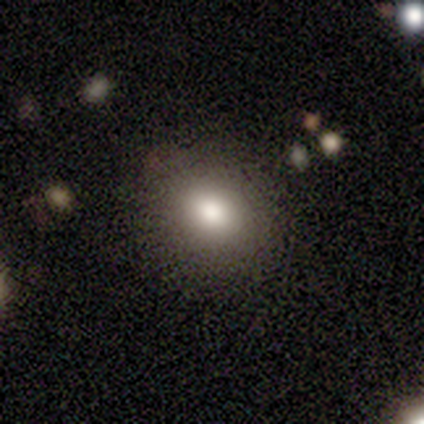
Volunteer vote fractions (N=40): Smooth or featured? 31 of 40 (78%) said smooth. How rounded? 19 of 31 (61%) said round. Merging? 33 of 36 (92%) said none.